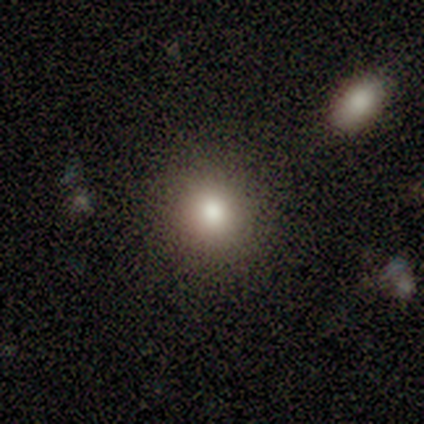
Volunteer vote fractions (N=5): Volunteers were most divided on "smooth or featured": smooth: 60%, featured or disk: 40%, star or artifact: 0%. More confident: how rounded — round (100%); merging — none (80%).